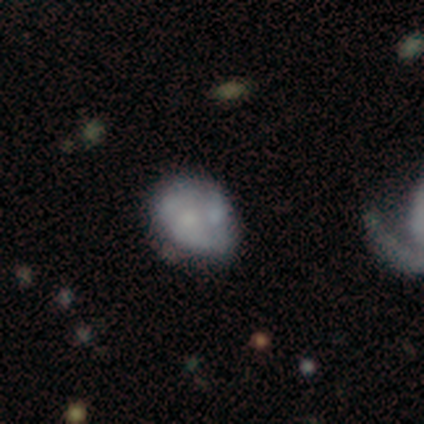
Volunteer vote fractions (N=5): Volunteers were most divided on "smooth or featured": smooth: 60%, featured or disk: 40%, star or artifact: 0%. Remaining: how rounded — in between (67%); merging — minor disturbance (40%).